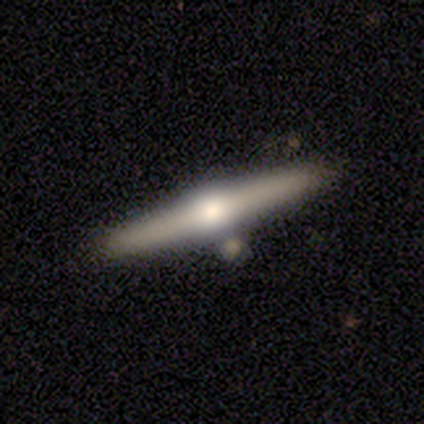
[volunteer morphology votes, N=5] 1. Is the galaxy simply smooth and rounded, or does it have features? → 80% featured or disk, 20% smooth, 0% star or artifact.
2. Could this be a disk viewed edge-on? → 100% yes, 0% no.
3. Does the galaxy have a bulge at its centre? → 100% rounded, 0% boxy, 0% none.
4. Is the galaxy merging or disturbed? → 60% none, 20% minor disturbance, 20% merger, 0% major disturbance.